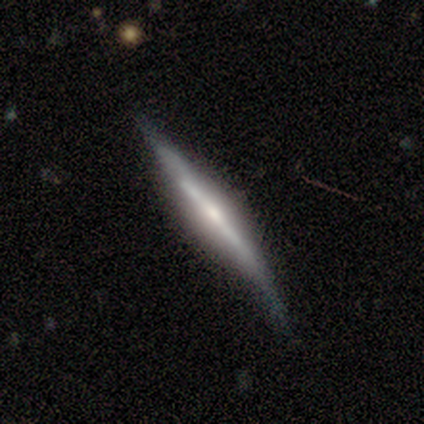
smooth-or-featured: featured or disk: 100% | smooth: 0% | star or artifact: 0%
  disk-edge-on: yes: 80% | no: 20%
    edge-on-bulge: none: 50% (tied) | rounded: 50% (tied) | boxy: 0%
  merging: minor disturbance: 60% | none: 20% | major disturbance: 20% | merger: 0%